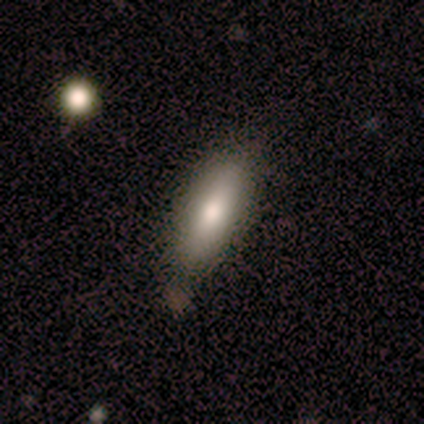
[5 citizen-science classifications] Smooth or featured?
  - smooth: 80% *
  - featured or disk: 20%
  - star or artifact: 0%
How rounded?
  - in between: 75% *
  - cigar-shaped: 25%
  - round: 0%
Merging?
  - none: 60% *
  - minor disturbance: 40%
  - major disturbance: 0%
  - merger: 0%